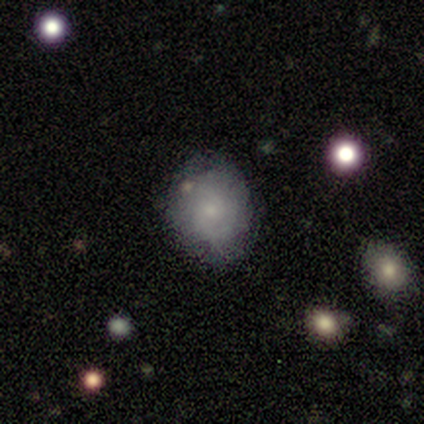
Overall: smooth (67%; featured or disk 33%). How rounded: round (50%, tied with in between). Merging: none (33%, tied with minor disturbance and major disturbance).